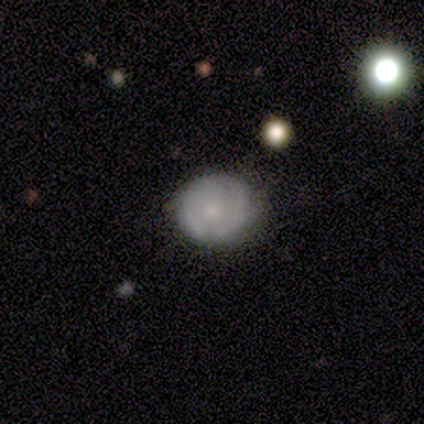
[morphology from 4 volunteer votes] Smooth or featured?
  - smooth: 50% * (tied)
  - featured or disk: 50% * (tied)
  - star or artifact: 0%
How rounded?
  - round: 100% *
  - in between: 0%
  - cigar-shaped: 0%
Merging?
  - none: 75% *
  - minor disturbance: 25%
  - major disturbance: 0%
  - merger: 0%